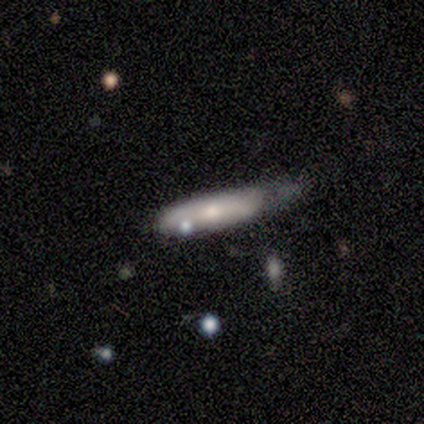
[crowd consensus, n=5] smooth-or-featured: smooth: 100% | featured or disk: 0% | star or artifact: 0%
  how-rounded: cigar-shaped: 80% | in between: 20% | round: 0%
  merging: none: 40% (tied) | minor disturbance: 40% (tied) | merger: 20% | major disturbance: 0%